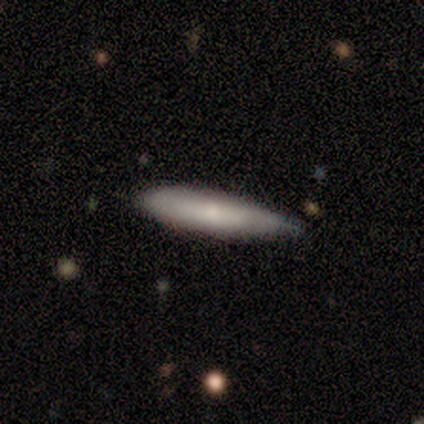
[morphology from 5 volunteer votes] This appears to be a smooth galaxy with no disk features (40%, tied with featured or disk) that is cigar-shaped (100%). Merging: none (50%, tied with minor disturbance).